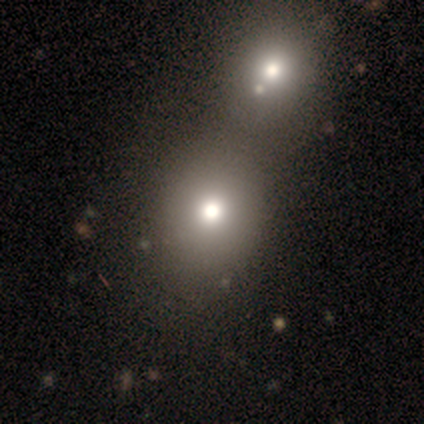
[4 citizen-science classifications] Q: Smooth or featured?
A: smooth (100%)
Q: How rounded?
A: round (75%); runner-up: in between (25%)
Q: Merging?
A: merger (50%); runner-up: none (25%)